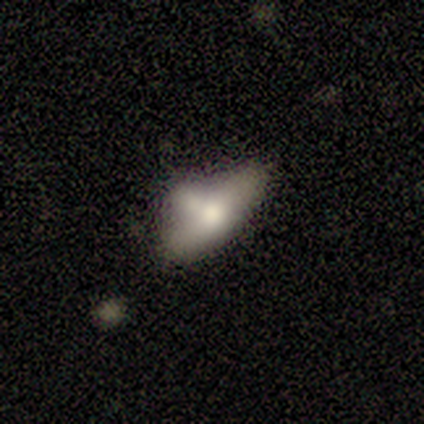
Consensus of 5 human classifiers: smooth 80%, featured or disk 20%, star or artifact 0%. Down the decision tree: how rounded — in between (100%); merging — major disturbance (40%).